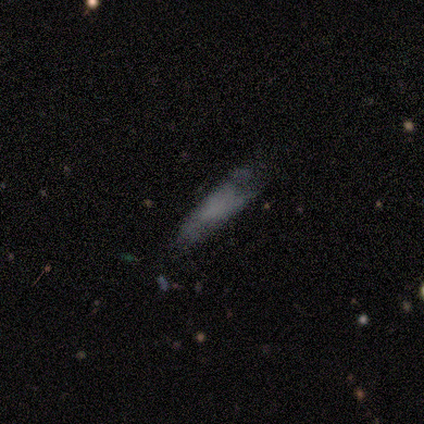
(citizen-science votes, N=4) Smooth or featured?
  - smooth: 100% *
  - featured or disk: 0%
  - star or artifact: 0%
How rounded?
  - cigar-shaped: 75% *
  - in between: 25%
  - round: 0%
Merging?
  - minor disturbance: 50% * (tied)
  - major disturbance: 50% * (tied)
  - none: 0%
  - merger: 0%